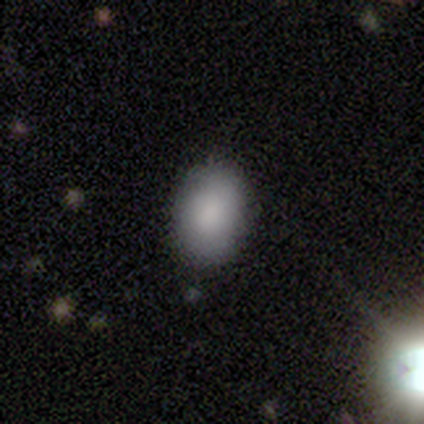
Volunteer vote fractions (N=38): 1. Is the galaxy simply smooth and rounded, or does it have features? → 79% smooth, 13% star or artifact, 8% featured or disk.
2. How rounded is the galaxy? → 90% in between, 10% round, 0% cigar-shaped.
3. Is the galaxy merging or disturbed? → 91% none, 9% minor disturbance, 0% major disturbance, 0% merger.